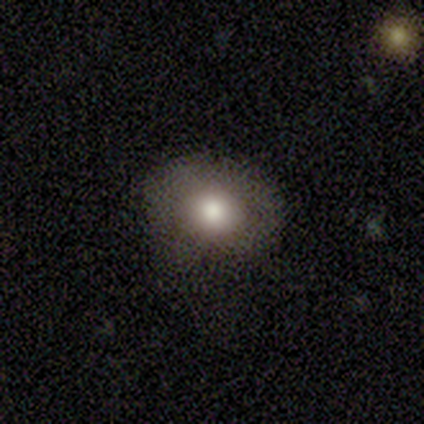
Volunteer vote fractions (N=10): A smooth galaxy with no disk features (60%) that is round (50%, tied with in between). Merging: none (67%).